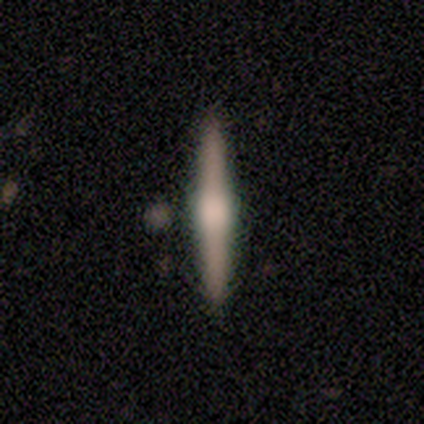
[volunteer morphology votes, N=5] Smooth or featured: smooth — 40% (tied with featured or disk — 40%)
How rounded: in between — 50% (tied with cigar-shaped — 50%)
Merging: none — 100%